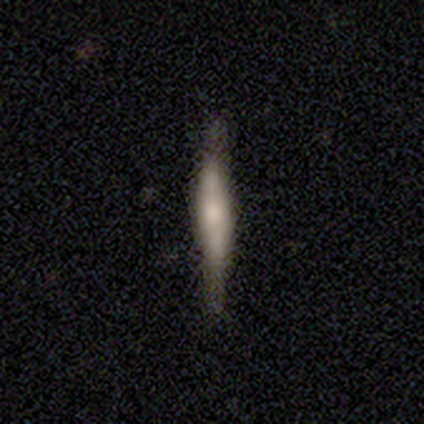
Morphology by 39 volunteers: This is likely a featured or disk galaxy (72%). It is clearly viewed edge-on (93%). Edge-on bulge: possibly rounded (54%). Merging: clearly none (84%).